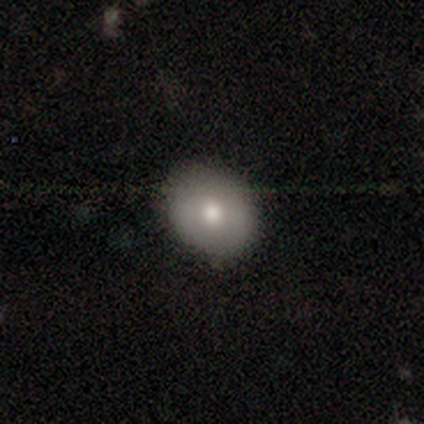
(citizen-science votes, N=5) Q: Smooth or featured?
A: smooth (80%); runner-up: featured or disk (20%)
Q: How rounded?
A: round (50%); tied with: in between (50%)
Q: Merging?
A: none (80%); runner-up: major disturbance (20%)